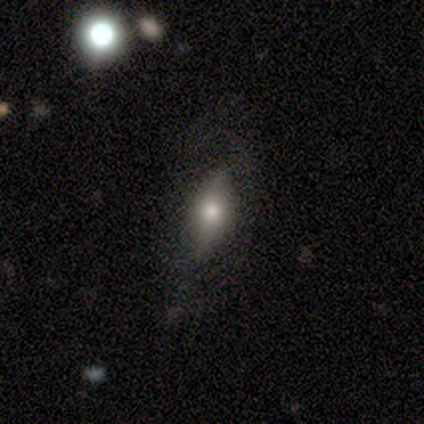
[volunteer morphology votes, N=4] Smooth or featured? 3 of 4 (75%) said smooth. How rounded? 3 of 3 (100%) said in between. Merging? 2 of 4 (50%, tied with minor disturbance) said none.